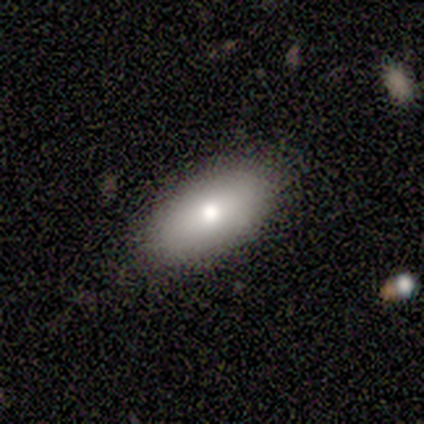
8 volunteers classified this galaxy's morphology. This is possibly a smooth galaxy (50%, tied with featured or disk). How rounded: clearly in between (100%). Merging: likely none (75%).